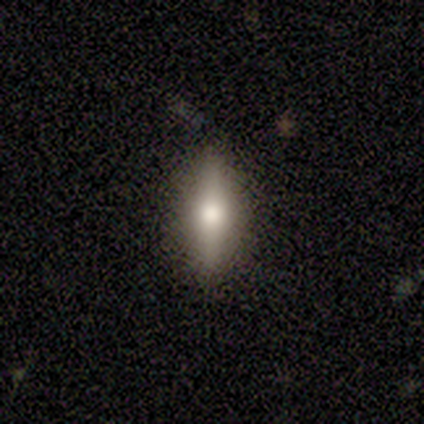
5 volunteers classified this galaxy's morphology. Smooth or featured? featured or disk (60%)
Edge-on disk? yes (67%)
Edge-on bulge? rounded (100%)
Merging? none (100%)